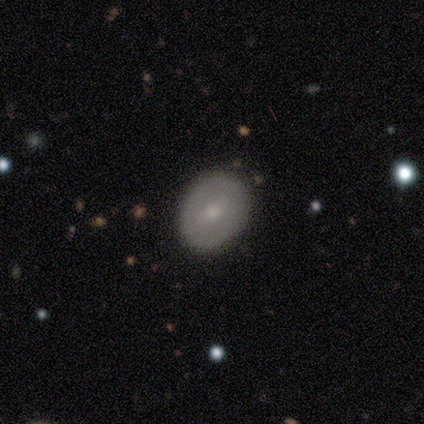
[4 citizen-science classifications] Smooth or featured? smooth (50%, tied with featured or disk)
How rounded? round (50%, tied with in between)
Merging? none (100%)